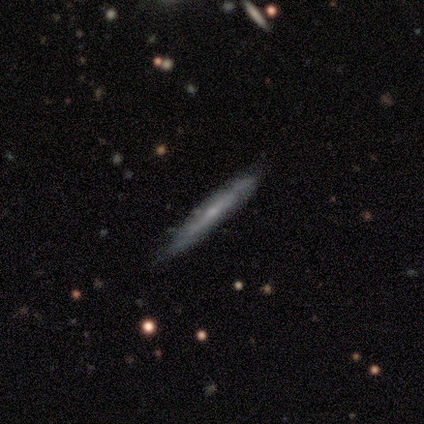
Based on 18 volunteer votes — Overall: featured or disk (61%; smooth 39%). Edge-on disk: yes (82%). Edge-on bulge: none (67%; rounded 33%). Merging: none (72%).